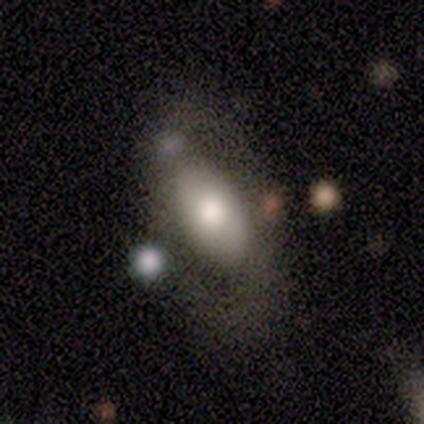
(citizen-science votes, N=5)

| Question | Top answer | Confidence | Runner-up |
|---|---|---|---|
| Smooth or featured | smooth | 60% | featured or disk (40%) |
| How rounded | in between | 100% | — |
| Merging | major disturbance | 60% | none (20%) |